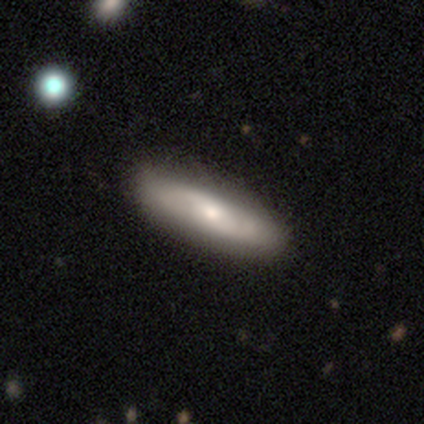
smooth_or_featured: smooth (p=0.60) [alt: featured or disk p=0.40]
how_rounded: cigar-shaped (p=0.67) [alt: in between p=0.33]
merging: none (p=0.80) [alt: major disturbance p=0.20]